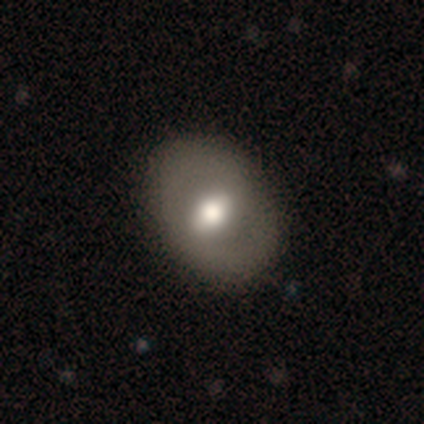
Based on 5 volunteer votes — A featured or disk galaxy (60%) with a strong bar (33%, tied with weak and no), no spiral arms (67%) and a moderate central bulge (67%). Merging: none (100%).